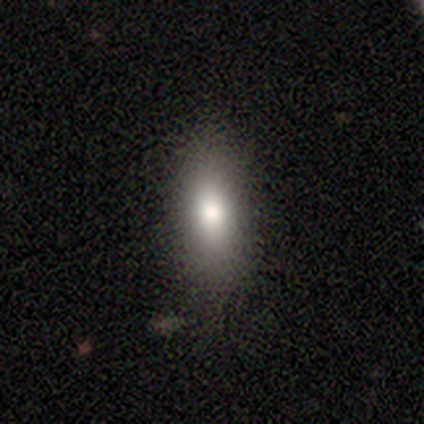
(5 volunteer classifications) Overall: smooth (80%). How rounded: in between (50%, tied with cigar-shaped). Merging: none (75%).